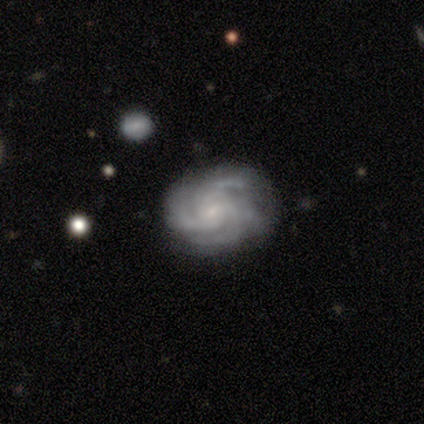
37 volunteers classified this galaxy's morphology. Smooth or featured?
  - featured or disk: 95% *
  - star or artifact: 5%
  - smooth: 0%
Edge-on disk?
  - no: 97% *
  - yes: 3%
Bar?
  - no: 62% *
  - weak: 26%
  - strong: 12%
Spiral arms?
  - yes: 100% *
  - no: 0%
Spiral winding?
  - tight: 59% *
  - medium: 41%
  - loose: 0%
Spiral arm count?
  - 3: 44% *
  - 4: 38%
  - can't tell: 15%
  - 2: 3%
  - 1: 0%
  - more than 4: 0%
Bulge size?
  - small: 79% *
  - moderate: 12%
  - none: 9%
  - dominant: 0%
  - large: 0%
Merging?
  - none: 74% *
  - minor disturbance: 20%
  - major disturbance: 6%
  - merger: 0%